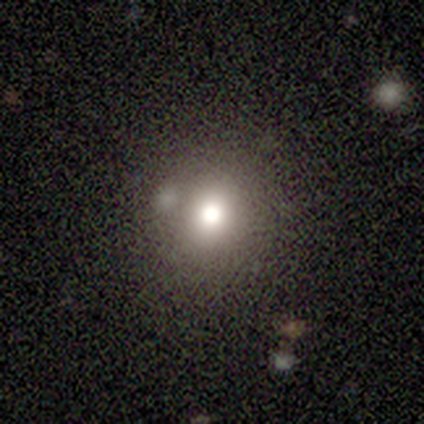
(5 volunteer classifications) smooth_or_featured: smooth (p=0.40) [tied with: star or artifact p=0.40]
how_rounded: round (p=1.00)
merging: none (p=0.67) [alt: merger p=0.33]